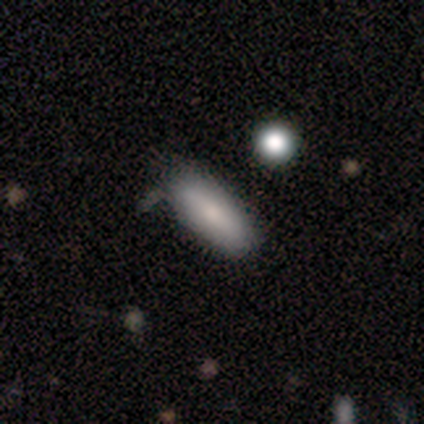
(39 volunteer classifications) Morphology: type=smooth (79%); roundness=in between (77%); merging=none (83%).